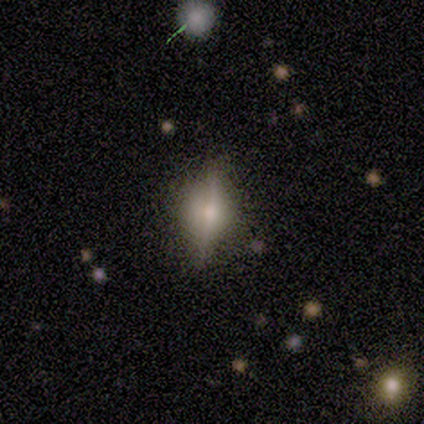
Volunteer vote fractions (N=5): smooth_or_featured: smooth (p=0.40) [tied with: featured or disk p=0.40]
how_rounded: in between (p=1.00)
merging: none (p=0.50) [alt: minor disturbance p=0.25]